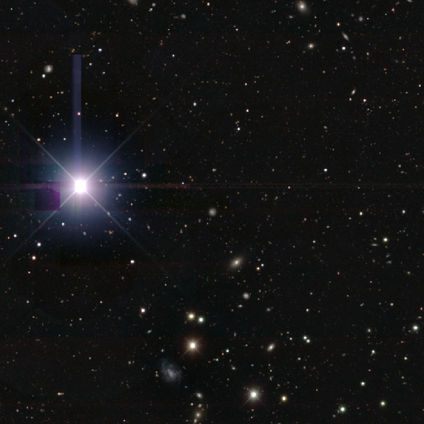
star or artifact 65%, smooth 35%, featured or disk 0%.